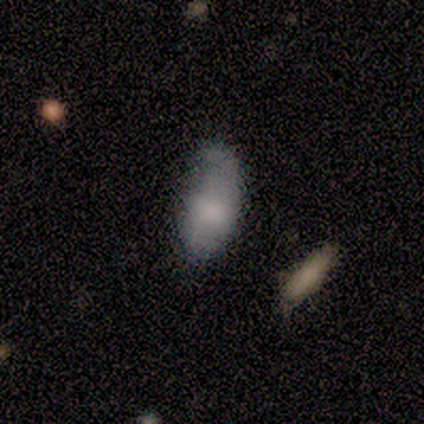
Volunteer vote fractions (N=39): Q: Smooth or featured?
A: smooth (67%); runner-up: featured or disk (31%)
Q: How rounded?
A: in between (96%); runner-up: round (4%)
Q: Merging?
A: minor disturbance (37%); runner-up: none (26%)